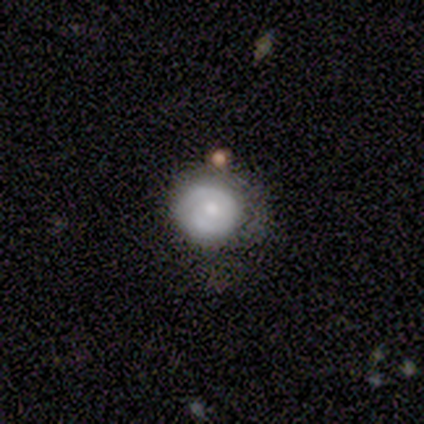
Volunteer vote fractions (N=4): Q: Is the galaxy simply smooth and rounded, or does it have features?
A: featured or disk — 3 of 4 (75%).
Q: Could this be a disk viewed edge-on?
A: no — 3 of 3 (100%).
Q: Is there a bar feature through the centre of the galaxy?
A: no — 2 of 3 (67%).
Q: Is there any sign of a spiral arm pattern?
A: yes — 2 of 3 (67%).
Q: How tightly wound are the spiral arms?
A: medium — 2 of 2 (100%).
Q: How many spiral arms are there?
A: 2 — 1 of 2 (50%, tied with can't tell).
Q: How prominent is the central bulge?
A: moderate — 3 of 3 (100%).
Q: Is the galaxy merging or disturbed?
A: none — 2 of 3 (67%).